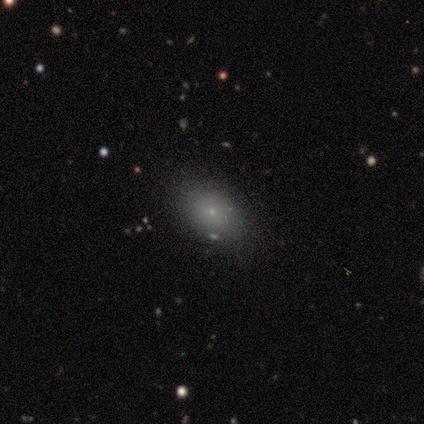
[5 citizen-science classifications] smooth_or_featured: smooth (p=1.00)
how_rounded: round (p=0.60) [alt: in between p=0.40]
merging: none (p=1.00)